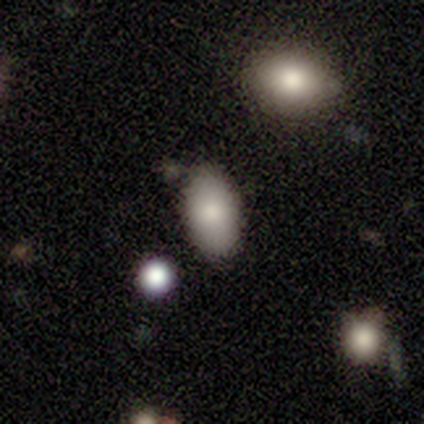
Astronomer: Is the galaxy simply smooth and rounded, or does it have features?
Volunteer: smooth — 80%.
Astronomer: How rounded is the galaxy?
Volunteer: in between — 100%.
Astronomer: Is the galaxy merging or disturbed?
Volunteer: none — 60%.